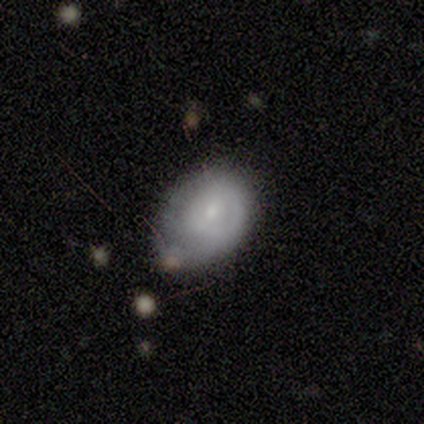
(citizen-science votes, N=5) smooth 100%, featured or disk 0%, star or artifact 0%. Down the decision tree: how rounded — round (60%); merging — minor disturbance (80%).